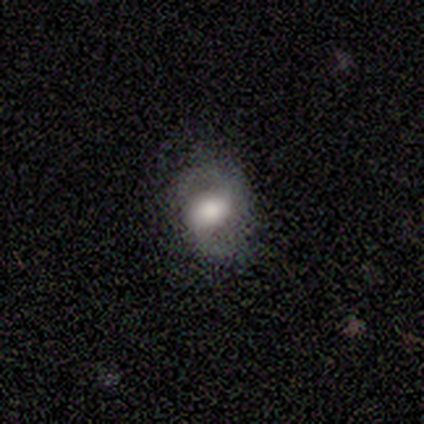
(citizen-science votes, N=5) This is likely a featured or disk galaxy (60%). It is clearly not viewed edge-on (100%). Bar: likely no (67%). Spiral arm pattern: likely yes (67%). Spiral arm count: clearly 2 (100%). Spiral winding: clearly loose (100%). Central bulge: likely large (67%). Merging: likely none (60%).